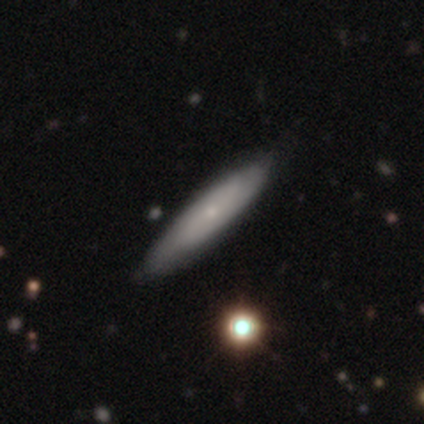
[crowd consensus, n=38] Q: Smooth or featured?
A: smooth (58%); runner-up: featured or disk (42%)
Q: How rounded?
A: cigar-shaped (77%); runner-up: in between (23%)
Q: Merging?
A: none (66%); runner-up: minor disturbance (5%)